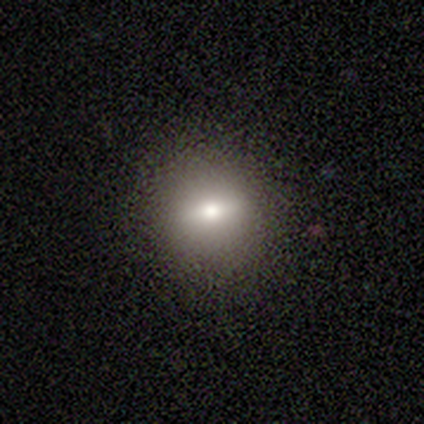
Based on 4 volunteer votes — A smooth galaxy with no disk features (50%, tied with featured or disk) that is round (100%). Merging: none (75%).